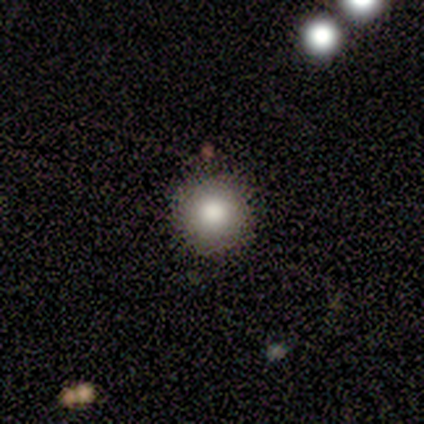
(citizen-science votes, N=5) A smooth galaxy with no disk features (80%) that is round (100%).

Vote fractions:
- Smooth or featured? smooth: 80% / star or artifact: 20% / featured or disk: 0%
- How rounded? round: 100% / in between: 0% / cigar-shaped: 0%
- Merging? none: 75% / minor disturbance: 25% / major disturbance: 0% / merger: 0%